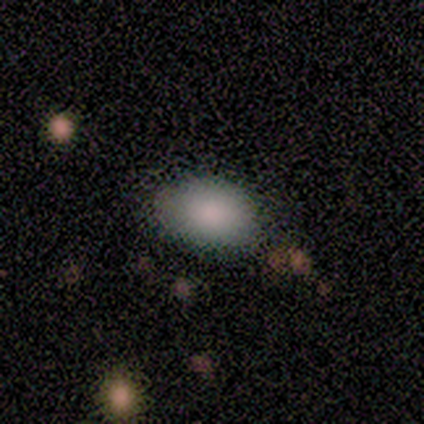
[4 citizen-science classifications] Volunteers were most divided on "merging": none: 75%, minor disturbance: 25%, major disturbance: 0%, merger: 0%. More confident: smooth or featured — smooth (100%); how rounded — in between (100%).